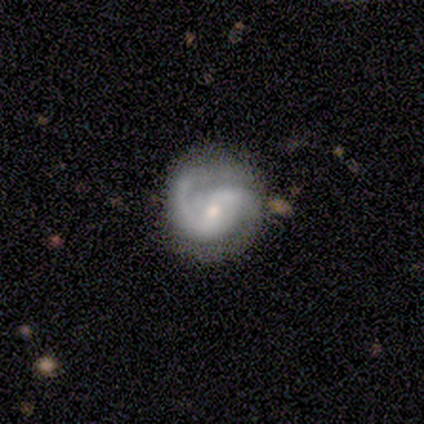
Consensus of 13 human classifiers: A featured or disk galaxy (92%) with a weak bar (50%), 2 (92%) tight (42%, tied with medium) spiral arms (100%) and a small central bulge (50%).

Vote fractions:
- Smooth or featured? featured or disk: 92% / smooth: 8% / star or artifact: 0%
- Edge-on disk? no: 100% / yes: 0%
- Bar? weak: 50% / no: 33% / strong: 17%
- Spiral arms? yes: 100% / no: 0%
- Spiral winding? tight: 42% (tied) / medium: 42% (tied) / loose: 17%
- Spiral arm count? 2: 92% / 1: 8% / 3: 0% / 4: 0% / more than 4: 0% / can't tell: 0%
- Bulge size? small: 50% / moderate: 33% / large: 8% / none: 8% / dominant: 0%
- Merging? none: 85% / minor disturbance: 8% / major disturbance: 8% / merger: 0%